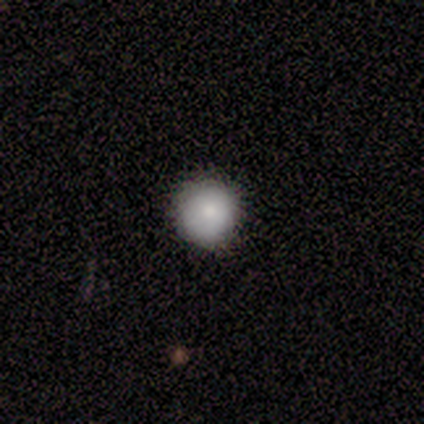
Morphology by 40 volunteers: This appears to be a smooth galaxy with no disk features (85%) that is round (100%). Merging: none (81%).